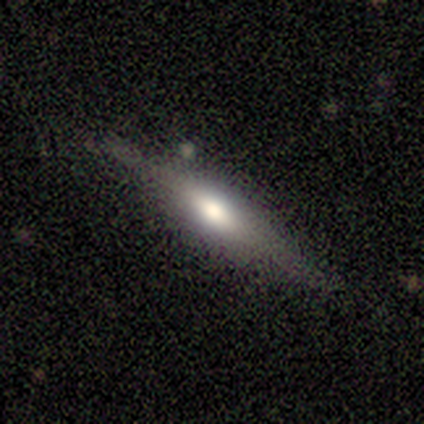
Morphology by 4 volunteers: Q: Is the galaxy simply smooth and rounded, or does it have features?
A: featured or disk — 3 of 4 (75%).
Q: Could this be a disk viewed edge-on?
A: yes — 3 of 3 (100%).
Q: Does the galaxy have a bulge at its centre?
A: none — 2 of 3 (67%).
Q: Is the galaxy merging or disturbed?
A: none — 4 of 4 (100%).